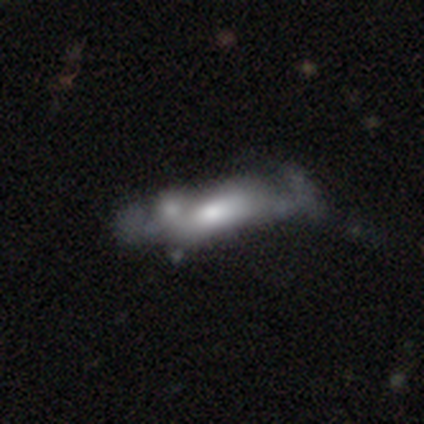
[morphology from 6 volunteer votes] smooth-or-featured: featured or disk: 67% | smooth: 17% | star or artifact: 17%
  disk-edge-on: no: 75% | yes: 25%
    bar: no: 100% | strong: 0% | weak: 0%
    has-spiral-arms: no: 100% | yes: 0%
    bulge-size: large: 100% | dominant: 0% | moderate: 0% | small: 0% | none: 0%
  merging: merger: 60% | none: 20% | major disturbance: 20% | minor disturbance: 0%